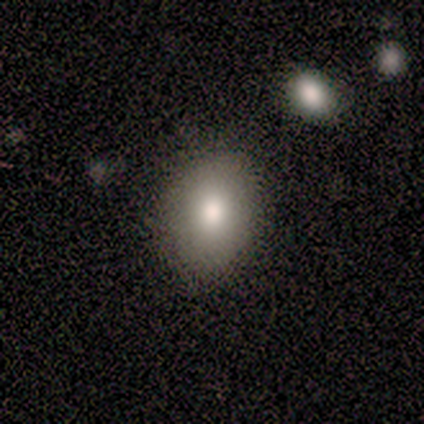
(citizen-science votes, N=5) Smooth or featured?
  - smooth: 80% *
  - featured or disk: 20%
  - star or artifact: 0%
How rounded?
  - in between: 100% *
  - round: 0%
  - cigar-shaped: 0%
Merging?
  - none: 100% *
  - minor disturbance: 0%
  - major disturbance: 0%
  - merger: 0%